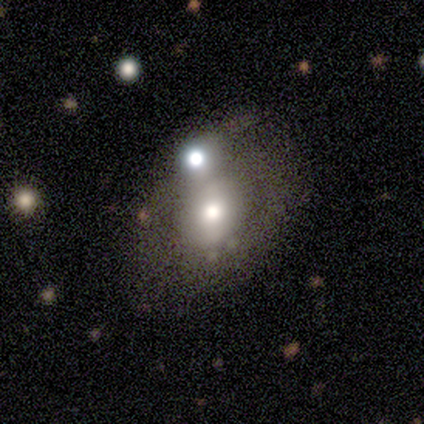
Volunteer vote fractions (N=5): Smooth or featured?
  - smooth: 40% * (tied)
  - featured or disk: 40% * (tied)
  - star or artifact: 20%
How rounded?
  - round: 100% *
  - in between: 0%
  - cigar-shaped: 0%
Merging?
  - none: 50% *
  - minor disturbance: 25%
  - merger: 25%
  - major disturbance: 0%